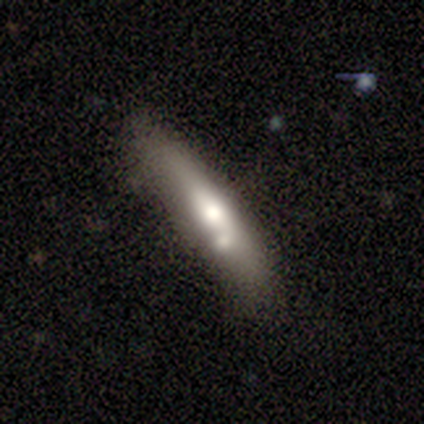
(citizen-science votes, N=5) Smooth or featured: smooth — 60% (featured or disk — 40%)
How rounded: cigar-shaped — 67% (in between — 33%)
Merging: none — 80% (merger — 20%)